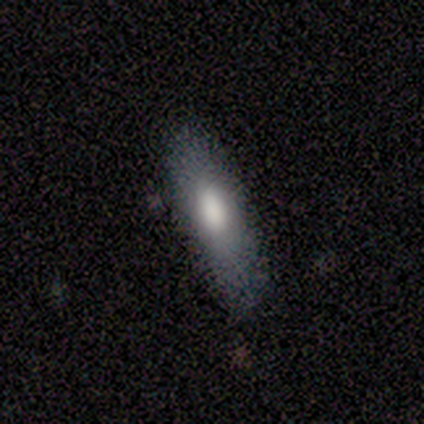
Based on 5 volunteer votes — Smooth or featured: smooth — 100%
How rounded: cigar-shaped — 80% (in between — 20%)
Merging: none — 100%